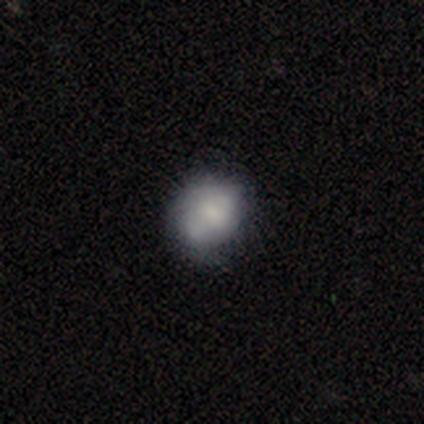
A featured or disk galaxy (67%) with a strong bar (50%, tied with weak), 2 (100%) tight (50%, tied with medium) spiral arms (50%, tied with no) and a small central bulge (50%).

Vote fractions:
- Smooth or featured? featured or disk: 67% / smooth: 33% / star or artifact: 0%
- Edge-on disk? no: 100% / yes: 0%
- Bar? strong: 50% (tied) / weak: 50% (tied) / no: 0%
- Spiral arms? yes: 50% (tied) / no: 50% (tied)
- Spiral winding? tight: 50% (tied) / medium: 50% (tied) / loose: 0%
- Spiral arm count? 2: 100% / 1: 0% / 3: 0% / 4: 0% / more than 4: 0% / can't tell: 0%
- Bulge size? small: 50% / large: 25% / none: 25% / dominant: 0% / moderate: 0%
- Merging? none: 67% / minor disturbance: 17% / major disturbance: 17% / merger: 0%